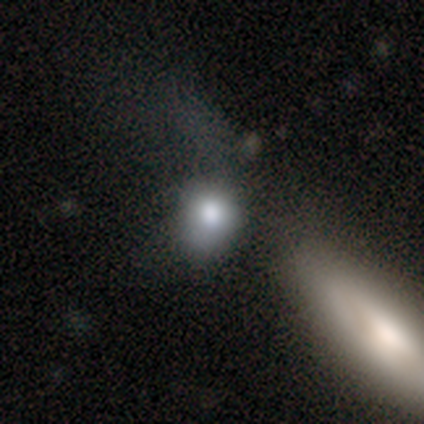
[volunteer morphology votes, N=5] This is clearly a smooth galaxy (100%). How rounded: clearly round (80%). Merging: likely none (60%).